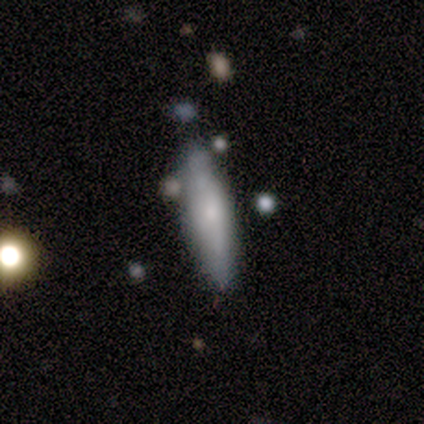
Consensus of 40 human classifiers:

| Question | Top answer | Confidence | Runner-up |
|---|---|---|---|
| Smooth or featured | smooth | 70% | featured or disk (28%) |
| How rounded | cigar-shaped | 79% | in between (21%) |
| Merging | none | 67% | minor disturbance (23%) |